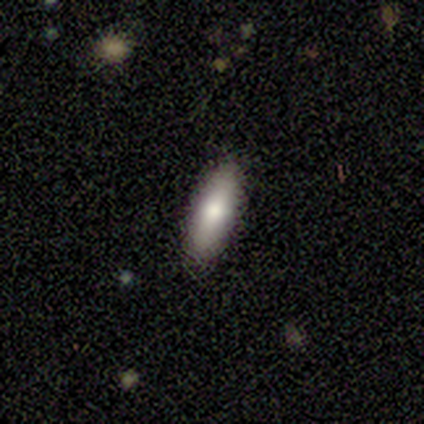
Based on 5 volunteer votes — smooth_or_featured: smooth (p=0.80) [alt: featured or disk p=0.20]
how_rounded: in between (p=0.75) [alt: cigar-shaped p=0.25]
merging: none (p=1.00)